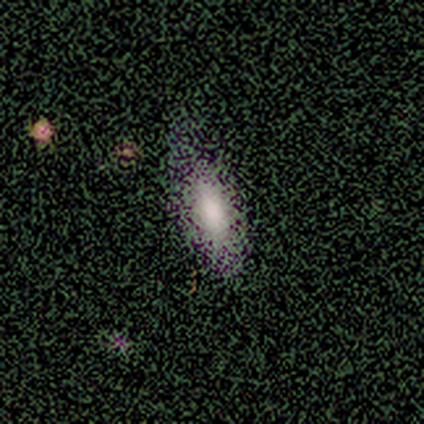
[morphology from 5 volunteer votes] A smooth galaxy with no disk features (80%) that is in between round and cigar-shaped (100%). Merging: minor disturbance (40%, tied with major disturbance).